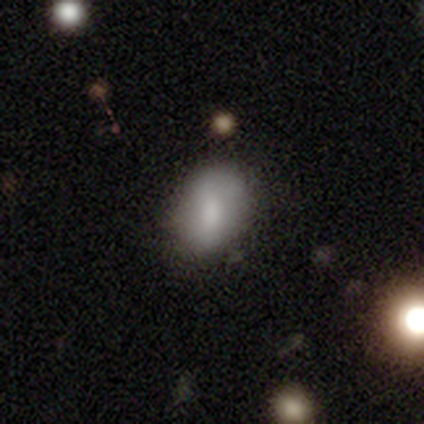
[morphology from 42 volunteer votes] smooth-or-featured: smooth: 64% | featured or disk: 31% | star or artifact: 5%
  how-rounded: in between: 89% | round: 7% | cigar-shaped: 4%
  merging: none: 38% | major disturbance: 18% | minor disturbance: 10% | merger: 2%